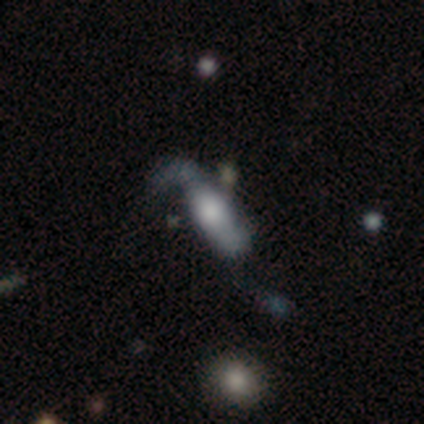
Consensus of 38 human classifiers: Smooth or featured: featured or disk — 58% (smooth — 32%)
Edge-on disk: no — 91% (yes — 9%)
Bar: no — 80% (weak — 15%)
Spiral arms: yes — 75% (no — 25%)
Spiral winding: loose — 73% (medium — 20%)
Spiral arm count: 2 — 60% (1 — 20%)
Bulge size: large — 40% (moderate — 25%)
Merging: major disturbance — 41% (none — 29%)